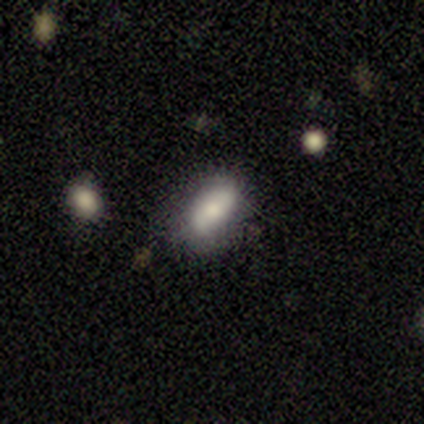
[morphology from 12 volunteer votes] Q: Smooth or featured?
A: smooth (75%); runner-up: featured or disk (25%)
Q: How rounded?
A: in between (78%); runner-up: round (11%)
Q: Merging?
A: none (67%); runner-up: minor disturbance (25%)